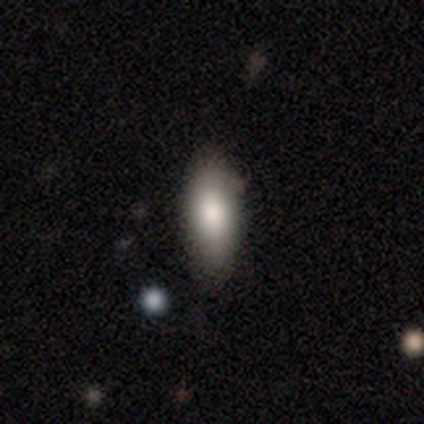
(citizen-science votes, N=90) A smooth galaxy with no disk features (78%) that is in between round and cigar-shaped (77%). Merging: none (70%).